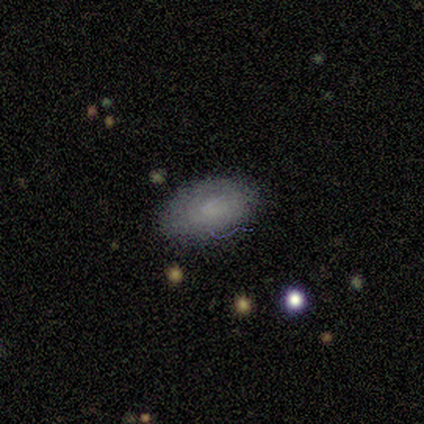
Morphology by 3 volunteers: This is likely a smooth galaxy (67%). How rounded: possibly round (50%, tied with in between). Merging: clearly none (100%).